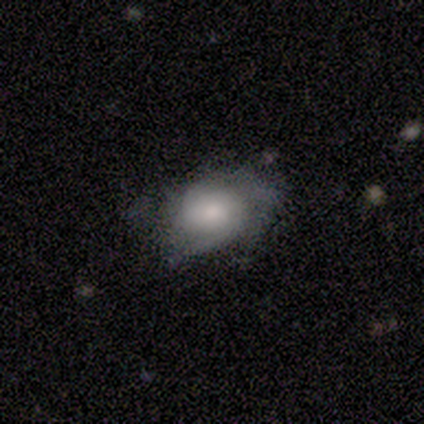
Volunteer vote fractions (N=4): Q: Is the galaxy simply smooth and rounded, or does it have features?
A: featured or disk — 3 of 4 (75%).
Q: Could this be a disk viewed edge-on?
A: no — 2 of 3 (67%).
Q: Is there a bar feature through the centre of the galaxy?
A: weak — 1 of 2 (50%, tied with no).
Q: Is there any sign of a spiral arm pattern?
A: yes — 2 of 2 (100%).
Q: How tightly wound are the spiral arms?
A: loose — 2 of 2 (100%).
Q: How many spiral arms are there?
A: can't tell — 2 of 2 (100%).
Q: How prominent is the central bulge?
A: moderate — 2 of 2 (100%).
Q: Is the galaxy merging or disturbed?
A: none — 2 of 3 (67%).